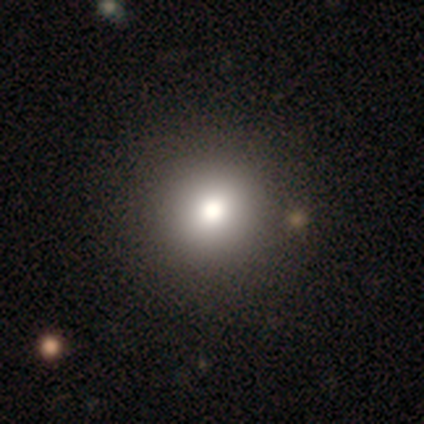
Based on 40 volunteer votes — Smooth or featured: smooth — 88% (star or artifact — 8%)
How rounded: round — 100%
Merging: none — 68% (minor disturbance — 3%)